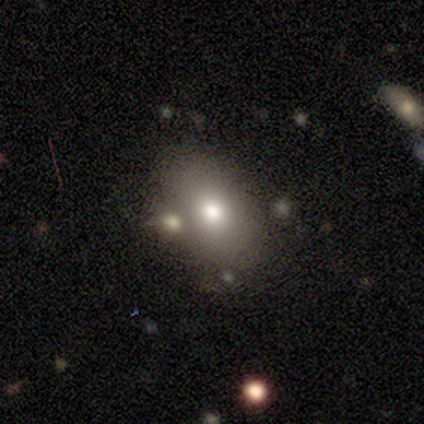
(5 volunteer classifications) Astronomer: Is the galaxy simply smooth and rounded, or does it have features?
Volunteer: smooth — 80%.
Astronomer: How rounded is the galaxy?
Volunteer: in between — 100%.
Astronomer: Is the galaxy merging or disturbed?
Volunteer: none — 80%.